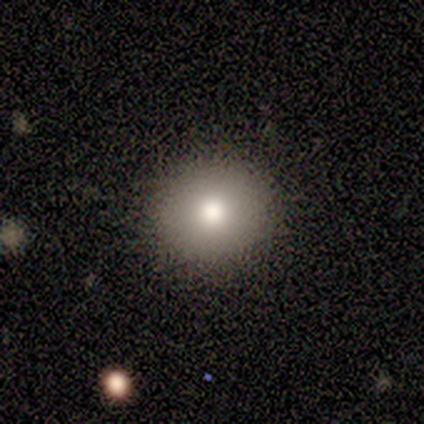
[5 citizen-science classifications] This appears to be a smooth galaxy with no disk features (80%) that is round (100%). Merging: none (100%).